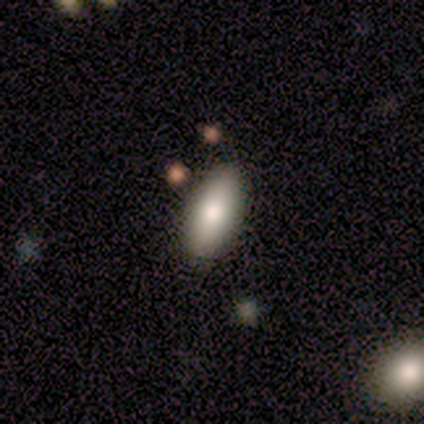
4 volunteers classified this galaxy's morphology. Smooth or featured: smooth — 100%
How rounded: in between — 100%
Merging: none — 75% (minor disturbance — 25%)